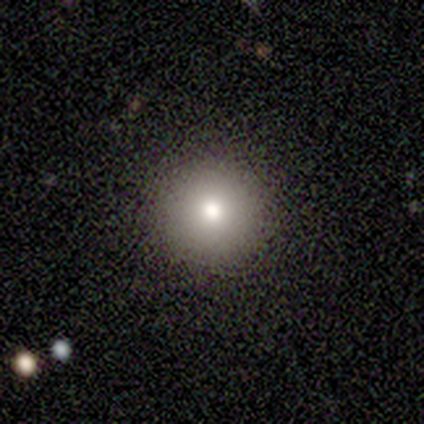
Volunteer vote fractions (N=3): Q: Smooth or featured?
A: smooth (100%)
Q: How rounded?
A: round (100%)
Q: Merging?
A: none (67%); runner-up: minor disturbance (33%)